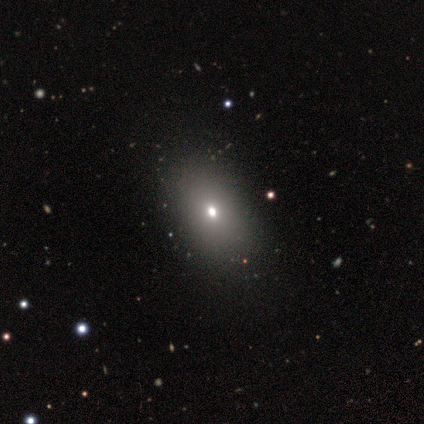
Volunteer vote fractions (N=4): Morphology: type=smooth (75%); roundness=in between (67%); merging=none (67%).